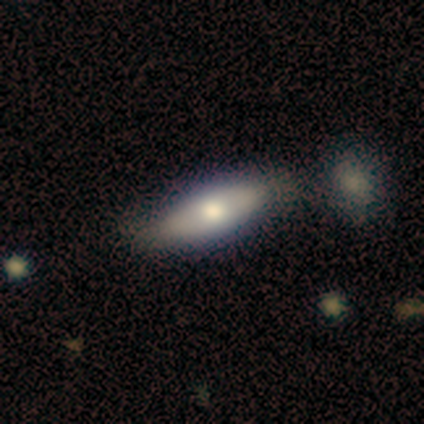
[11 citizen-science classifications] Smooth or featured? smooth (91%)
How rounded? in between (70%)
Merging? none (82%)